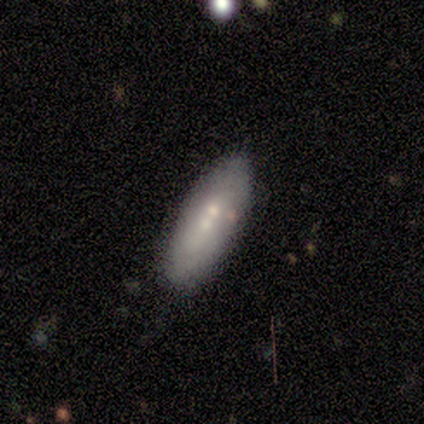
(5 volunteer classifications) A smooth galaxy with no disk features (60%) that is in between round and cigar-shaped (100%).

Vote fractions:
- Smooth or featured? smooth: 60% / featured or disk: 40% / star or artifact: 0%
- How rounded? in between: 100% / round: 0% / cigar-shaped: 0%
- Merging? none: 60% / major disturbance: 20% / merger: 20% / minor disturbance: 0%